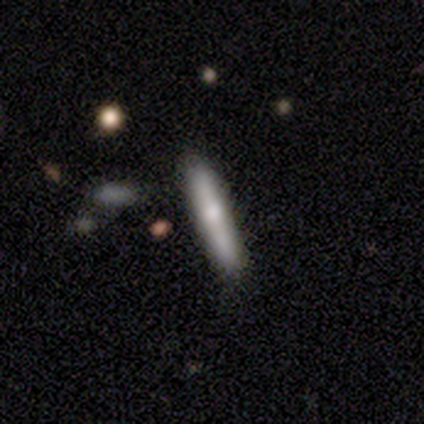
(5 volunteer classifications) Volunteers were most divided on "smooth or featured": smooth: 80%, featured or disk: 20%, star or artifact: 0%. More confident: how rounded — cigar-shaped (100%); merging — none (80%).